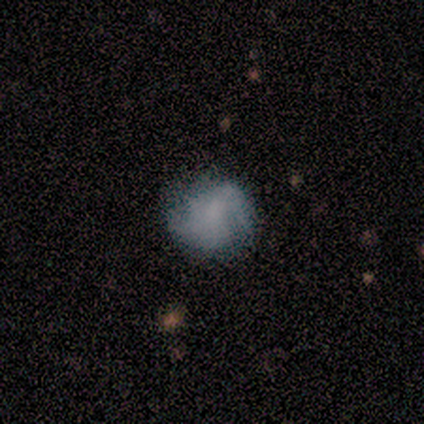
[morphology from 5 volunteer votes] Overall: smooth (80%). How rounded: round (100%). Merging: none (60%; minor disturbance 40%).